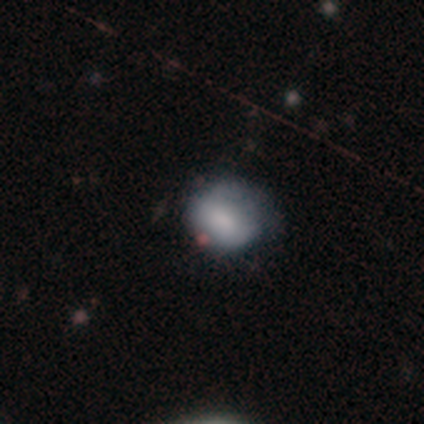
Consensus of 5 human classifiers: Smooth or featured? smooth (80%)
How rounded? round (50%, tied with in between)
Merging? none (40%, tied with minor disturbance)